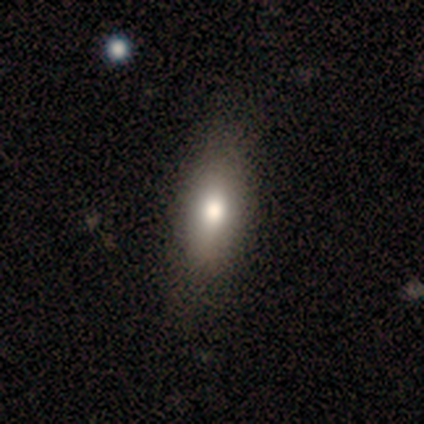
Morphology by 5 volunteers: Q: Smooth or featured?
A: featured or disk (60%); runner-up: smooth (40%)
Q: Edge-on disk?
A: no (100%)
Q: Bar?
A: no (100%)
Q: Spiral arms?
A: no (100%)
Q: Bulge size?
A: moderate (100%)
Q: Merging?
A: none (60%); runner-up: minor disturbance (40%)